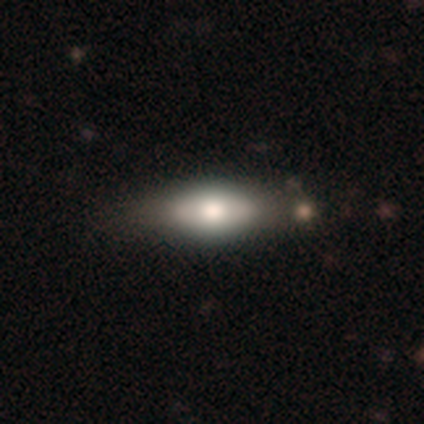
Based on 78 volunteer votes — Morphology: type=smooth (64%); roundness=in between (68%); merging=none (38%).